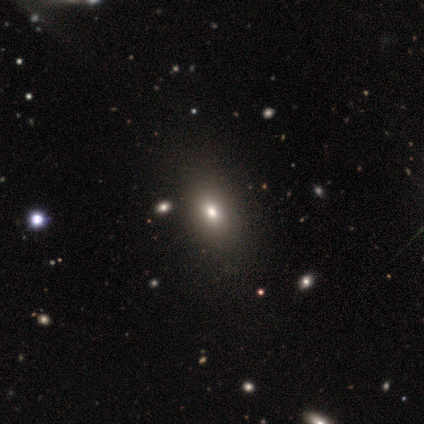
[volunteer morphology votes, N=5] This appears to be a smooth galaxy with no disk features (60%) that is in between round and cigar-shaped (100%). Merging: none (80%).